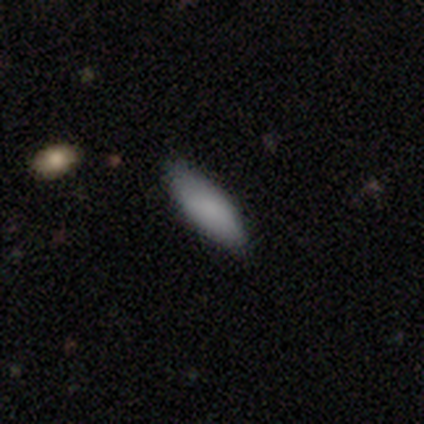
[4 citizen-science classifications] A smooth galaxy with no disk features (75%) that is in between round and cigar-shaped (100%).

Vote fractions:
- Smooth or featured? smooth: 75% / star or artifact: 25% / featured or disk: 0%
- How rounded? in between: 100% / round: 0% / cigar-shaped: 0%
- Merging? none: 33% (tied) / minor disturbance: 33% (tied) / merger: 33% (tied) / major disturbance: 0%